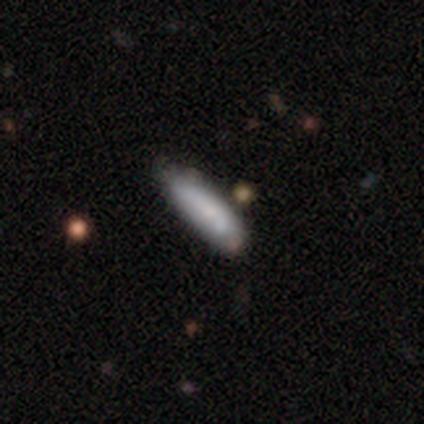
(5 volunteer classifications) Q: Smooth or featured?
A: smooth (100%)
Q: How rounded?
A: in between (60%); runner-up: cigar-shaped (40%)
Q: Merging?
A: minor disturbance (60%); runner-up: none (40%)